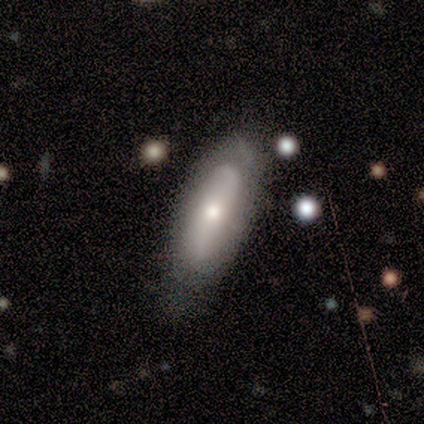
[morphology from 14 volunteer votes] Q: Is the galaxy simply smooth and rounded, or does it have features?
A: smooth — 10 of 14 (71%).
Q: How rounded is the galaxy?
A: in between — 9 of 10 (90%).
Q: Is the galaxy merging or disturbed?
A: none — 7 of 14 (50%).